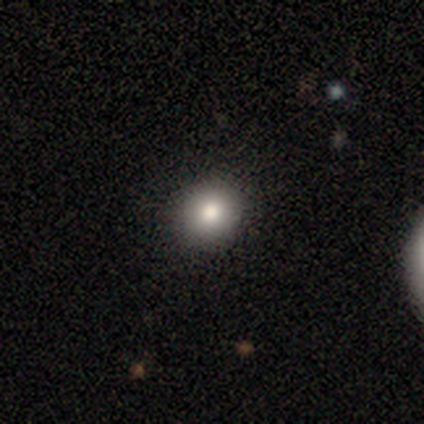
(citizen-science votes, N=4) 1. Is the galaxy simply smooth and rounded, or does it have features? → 75% smooth, 25% featured or disk, 0% star or artifact.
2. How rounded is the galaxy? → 67% round, 33% in between, 0% cigar-shaped.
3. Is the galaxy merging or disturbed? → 75% none, 25% minor disturbance, 0% major disturbance, 0% merger.